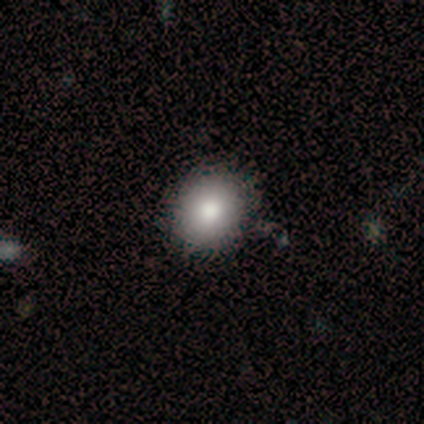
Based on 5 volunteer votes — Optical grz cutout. It shows a smooth galaxy with no disk features (80%) that is round (75%). Merging: none (100%).